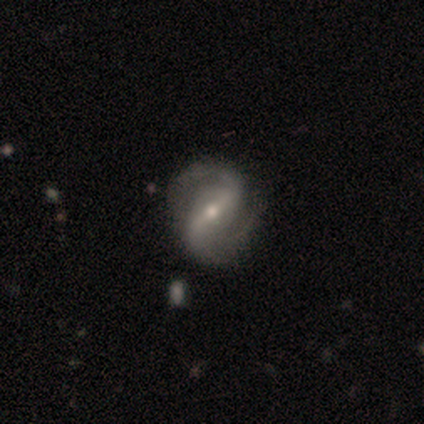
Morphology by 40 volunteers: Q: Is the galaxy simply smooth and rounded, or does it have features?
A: featured or disk — 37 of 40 (92%).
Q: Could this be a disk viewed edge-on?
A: no — 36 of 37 (97%).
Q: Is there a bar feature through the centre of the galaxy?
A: strong — 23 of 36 (64%).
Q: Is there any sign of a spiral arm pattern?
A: yes — 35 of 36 (97%).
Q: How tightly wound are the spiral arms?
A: medium — 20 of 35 (57%).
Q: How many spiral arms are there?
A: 2 — 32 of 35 (91%).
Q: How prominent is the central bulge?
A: moderate — 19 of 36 (53%).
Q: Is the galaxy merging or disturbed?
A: none — 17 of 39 (44%).